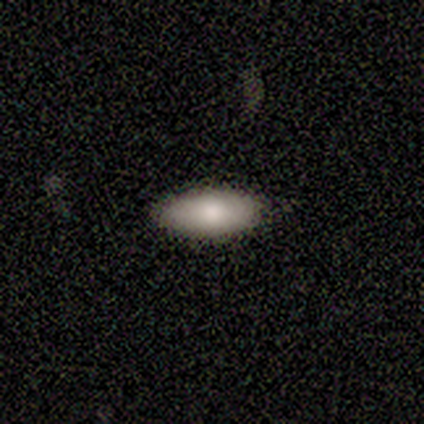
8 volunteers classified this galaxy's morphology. This is clearly a smooth galaxy (88%). How rounded: clearly in between (100%). Merging: likely none (75%).